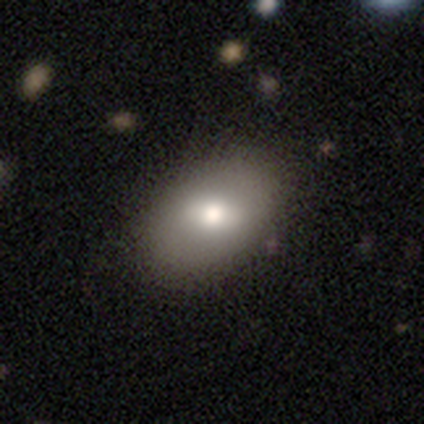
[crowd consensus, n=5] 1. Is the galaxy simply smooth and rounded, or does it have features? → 80% featured or disk, 20% smooth, 0% star or artifact.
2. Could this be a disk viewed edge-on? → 100% no, 0% yes.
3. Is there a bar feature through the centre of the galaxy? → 50% weak (tied), 50% no (tied), 0% strong.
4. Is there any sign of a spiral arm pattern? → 100% no, 0% yes.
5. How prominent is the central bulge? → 100% moderate, 0% dominant, 0% large, 0% small, 0% none.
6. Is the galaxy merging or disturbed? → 100% none, 0% minor disturbance, 0% major disturbance, 0% merger.